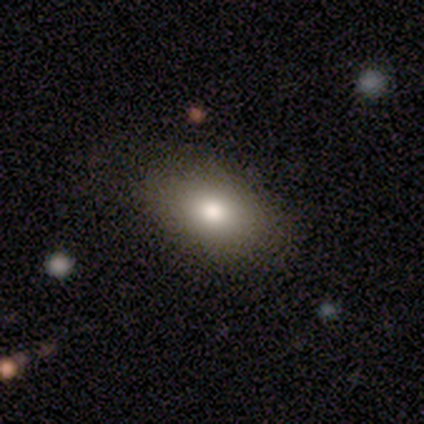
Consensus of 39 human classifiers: This is likely a smooth galaxy (69%). How rounded: clearly in between (85%). Merging: likely none (61%).